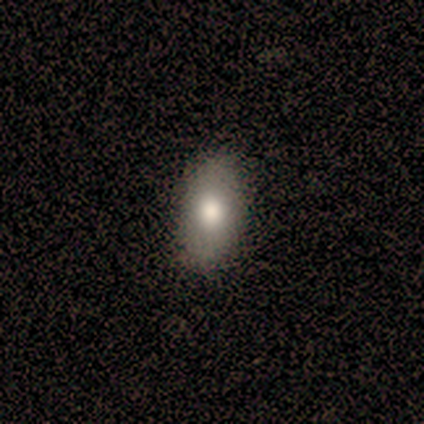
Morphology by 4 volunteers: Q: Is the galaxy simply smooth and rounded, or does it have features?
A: smooth — 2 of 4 (50%, tied with featured or disk).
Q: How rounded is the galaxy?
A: in between — 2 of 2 (100%).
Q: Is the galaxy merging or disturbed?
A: none — 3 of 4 (75%).